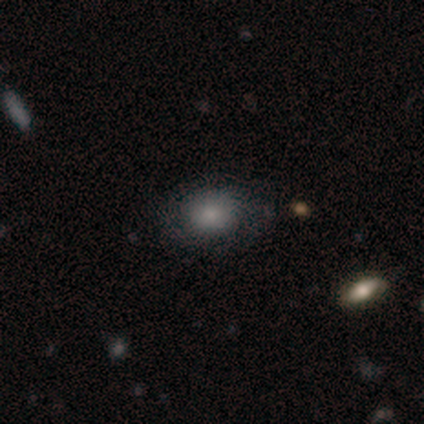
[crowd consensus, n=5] A smooth galaxy with no disk features (60%) that is in between round and cigar-shaped (67%). Merging: none (80%).